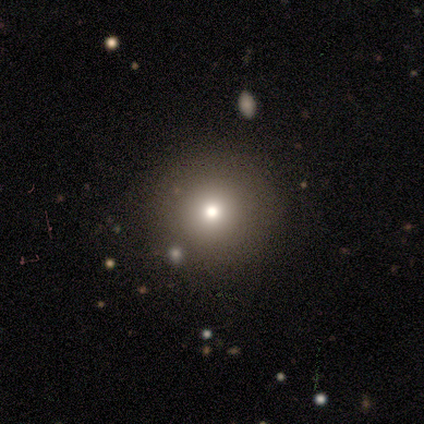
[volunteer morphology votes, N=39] Volunteers were most divided on "smooth or featured": smooth: 69%, star or artifact: 21%, featured or disk: 10%. More confident: how rounded — round (100%); merging — none (68%).